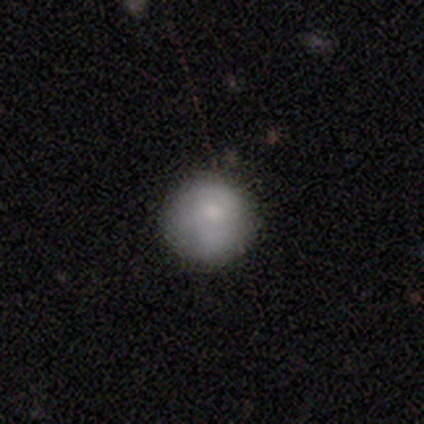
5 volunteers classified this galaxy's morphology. Q: Smooth or featured?
A: smooth (60%); runner-up: featured or disk (40%)
Q: How rounded?
A: round (100%)
Q: Merging?
A: none (60%); runner-up: minor disturbance (20%)